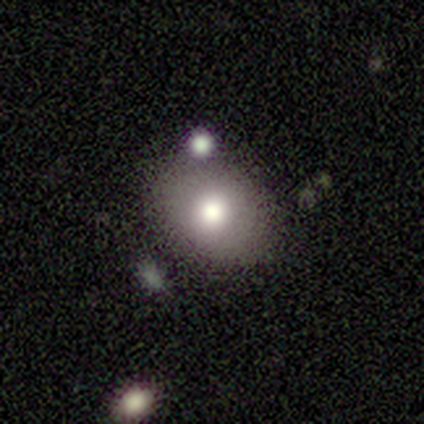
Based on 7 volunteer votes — This appears to be a featured or disk galaxy (57%) with no bar (100%), no spiral arms (100%) and a moderate central bulge (100%). Merging: none (86%).